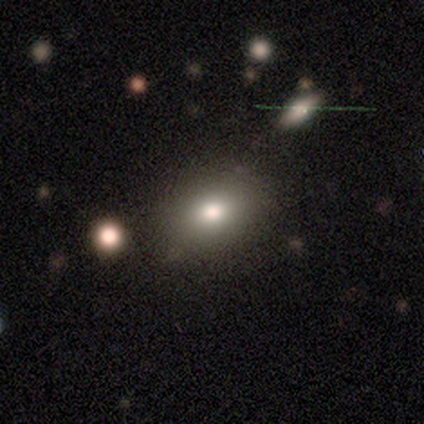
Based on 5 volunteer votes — Smooth or featured: smooth — 100%
How rounded: round — 60% (in between — 40%)
Merging: none — 100%